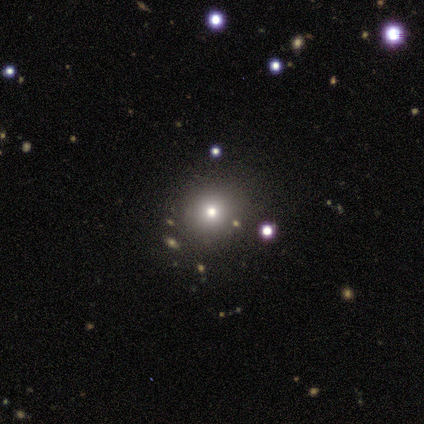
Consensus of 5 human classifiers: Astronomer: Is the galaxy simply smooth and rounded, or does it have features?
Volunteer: smooth — 60% (runner-up: featured or disk, 40%).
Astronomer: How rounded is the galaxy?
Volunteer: round — 67%.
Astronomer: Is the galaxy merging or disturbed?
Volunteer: none — 60% (runner-up: minor disturbance, 40%).